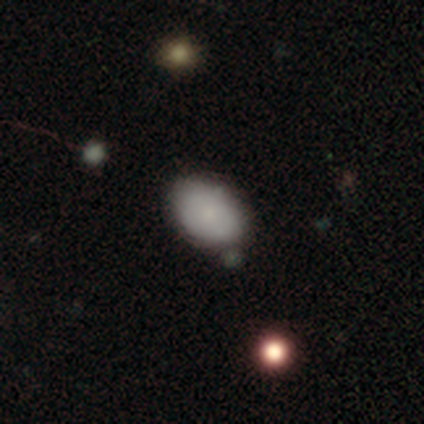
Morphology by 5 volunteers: A smooth galaxy with no disk features (60%) that is in between round and cigar-shaped (67%).

Vote fractions:
- Smooth or featured? smooth: 60% / featured or disk: 40% / star or artifact: 0%
- How rounded? in between: 67% / round: 33% / cigar-shaped: 0%
- Merging? none: 40% (tied) / minor disturbance: 40% (tied) / major disturbance: 20% / merger: 0%